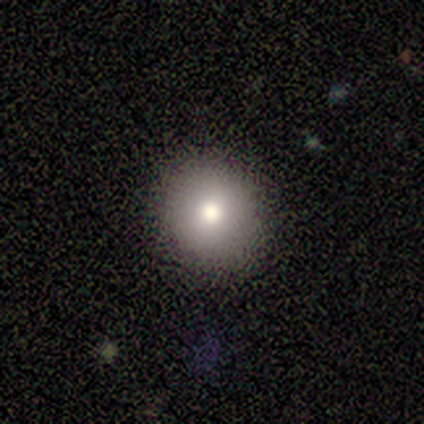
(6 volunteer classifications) A smooth galaxy with no disk features (83%) that is round (100%). Merging: none (80%).